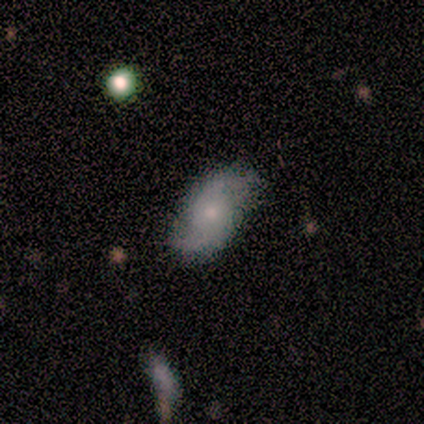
Smooth or featured?
  - featured or disk: 100% *
  - smooth: 0%
  - star or artifact: 0%
Edge-on disk?
  - no: 100% *
  - yes: 0%
Bar?
  - no: 75% *
  - weak: 25%
  - strong: 0%
Spiral arms?
  - yes: 100% *
  - no: 0%
Spiral winding?
  - loose: 75% *
  - medium: 25%
  - tight: 0%
Spiral arm count?
  - 2: 100% *
  - 1: 0%
  - 3: 0%
  - 4: 0%
  - more than 4: 0%
  - can't tell: 0%
Bulge size?
  - small: 75% *
  - moderate: 25%
  - dominant: 0%
  - large: 0%
  - none: 0%
Merging?
  - none: 100% *
  - minor disturbance: 0%
  - major disturbance: 0%
  - merger: 0%